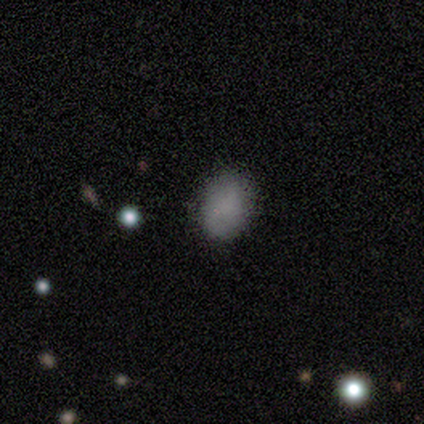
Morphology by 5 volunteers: Smooth or featured? smooth (100%)
How rounded? in between (80%)
Merging? none (80%)